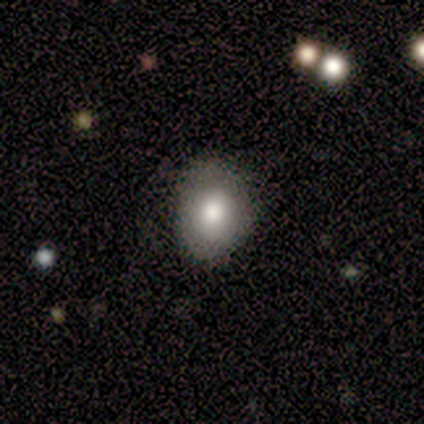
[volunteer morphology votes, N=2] A smooth galaxy with no disk features (100%) that is in between round and cigar-shaped (100%). Merging: none (100%).